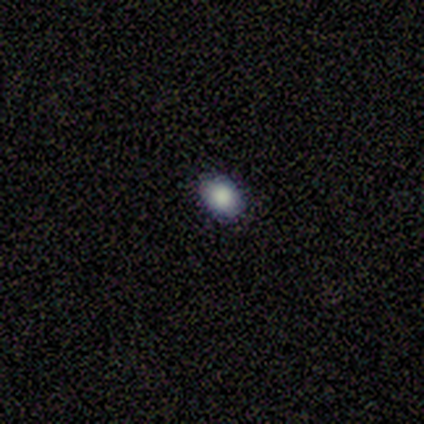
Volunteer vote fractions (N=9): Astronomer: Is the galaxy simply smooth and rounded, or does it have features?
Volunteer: smooth — 78%.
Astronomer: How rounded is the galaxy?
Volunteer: in between — 57% (runner-up: round, 43%).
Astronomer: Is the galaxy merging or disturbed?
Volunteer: none — 100%.